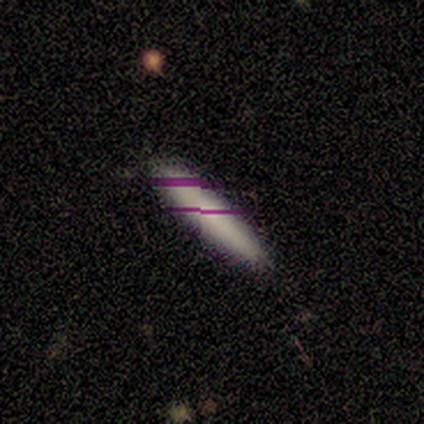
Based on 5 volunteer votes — smooth 80%, featured or disk 20%, star or artifact 0%. Down the decision tree: how rounded — in between (50%, tied with cigar-shaped); merging — none (80%).